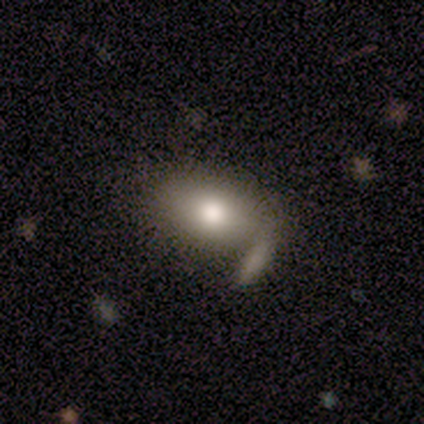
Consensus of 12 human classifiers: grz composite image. It shows a smooth galaxy with no disk features (83%) that is in between round and cigar-shaped (90%). Merging: none (42%).